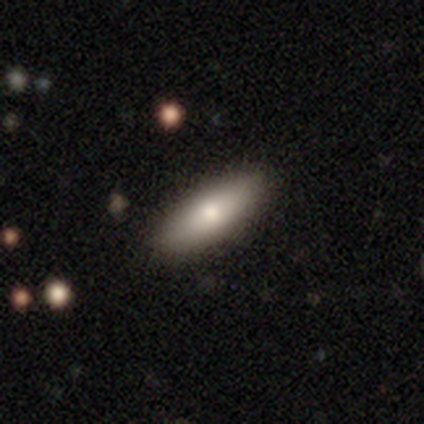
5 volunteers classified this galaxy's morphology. type=smooth (80%); roundness=in between (75%); merging=none (80%).